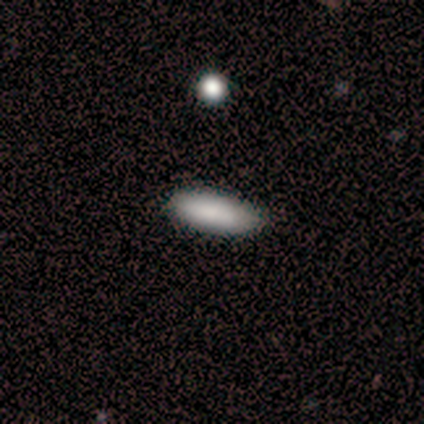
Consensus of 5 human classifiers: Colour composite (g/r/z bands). It shows a smooth galaxy with no disk features (80%) that is cigar-shaped (75%). Merging: none (100%).